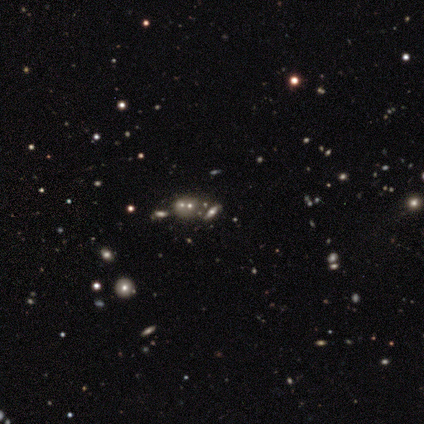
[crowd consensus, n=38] Smooth or featured?
  - featured or disk: 42% * (tied)
  - star or artifact: 42% * (tied)
  - smooth: 16%
Edge-on disk?
  - no: 88% *
  - yes: 12%
Bar?
  - no: 86% *
  - weak: 14%
  - strong: 0%
Spiral arms?
  - no: 64% *
  - yes: 36%
Bulge size?
  - moderate: 36% *
  - small: 29%
  - large: 21%
  - none: 14%
  - dominant: 0%
Merging?
  - none: 55% *
  - merger: 32%
  - minor disturbance: 9%
  - major disturbance: 5%